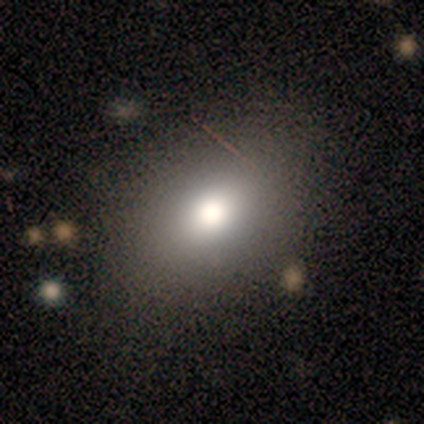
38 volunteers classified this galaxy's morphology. smooth-or-featured: smooth: 71% | featured or disk: 16% | star or artifact: 13%
  how-rounded: in between: 78% | round: 22% | cigar-shaped: 0%
  merging: none: 88% | minor disturbance: 12% | major disturbance: 0% | merger: 0%